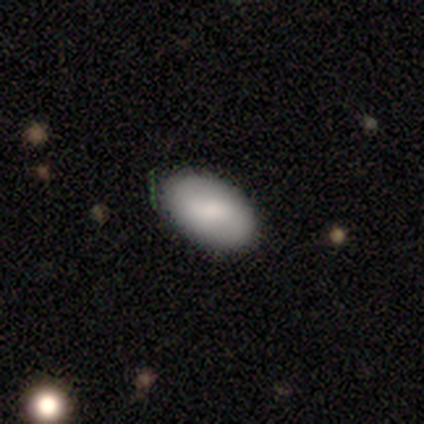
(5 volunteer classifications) This appears to be a smooth galaxy with no disk features (100%) that is in between round and cigar-shaped (100%). Merging: none (100%).